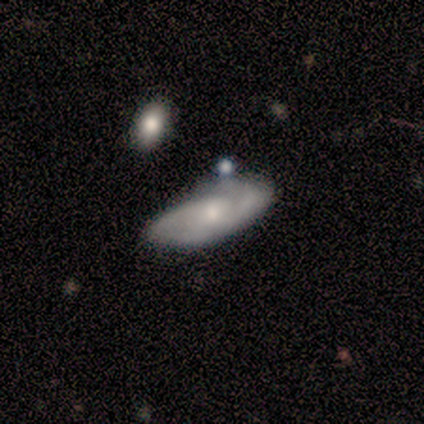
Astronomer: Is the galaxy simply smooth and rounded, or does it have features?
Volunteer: featured or disk — 75%.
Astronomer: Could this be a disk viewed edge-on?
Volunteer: no — 100%.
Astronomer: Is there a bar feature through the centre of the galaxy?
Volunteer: weak — 67%.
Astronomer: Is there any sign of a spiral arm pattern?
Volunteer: yes — 100%.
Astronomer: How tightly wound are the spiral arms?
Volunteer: tight — 67%.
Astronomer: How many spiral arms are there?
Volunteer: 2 — 100%.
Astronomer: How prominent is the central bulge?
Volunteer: small — 67%.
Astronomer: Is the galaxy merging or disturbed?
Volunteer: none — 100%.